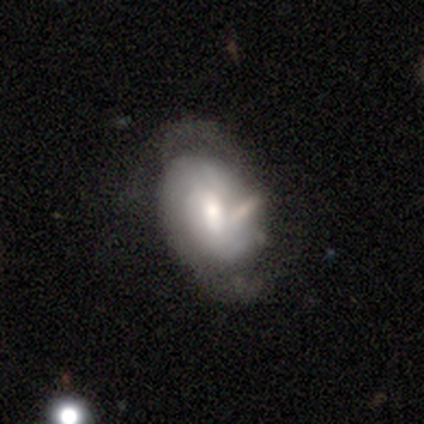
smooth_or_featured: featured or disk (p=0.65) [alt: smooth p=0.29]
disk_edge_on: no (p=0.94) [alt: yes p=0.06]
bar: weak (p=0.55) [alt: no p=0.38]
has_spiral_arms: yes (p=0.79) [alt: no p=0.21]
spiral_winding: tight (p=0.70) [alt: medium p=0.26]
spiral_arm_count: 2 (p=0.74) [alt: can't tell p=0.22]
bulge_size: moderate (p=0.52) [alt: large p=0.17]
merging: none (p=0.44) [alt: minor disturbance p=0.29]